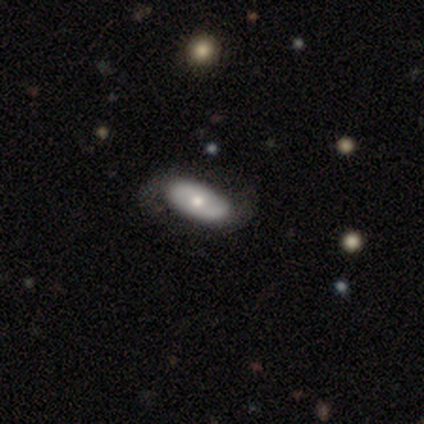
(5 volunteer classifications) Q: Smooth or featured?
A: featured or disk (100%)
Q: Edge-on disk?
A: no (100%)
Q: Bar?
A: no (100%)
Q: Spiral arms?
A: yes (80%); runner-up: no (20%)
Q: Spiral winding?
A: medium (75%); runner-up: loose (25%)
Q: Spiral arm count?
A: 2 (50%); runner-up: 1 (25%)
Q: Bulge size?
A: moderate (60%); runner-up: dominant (20%)
Q: Merging?
A: none (100%)